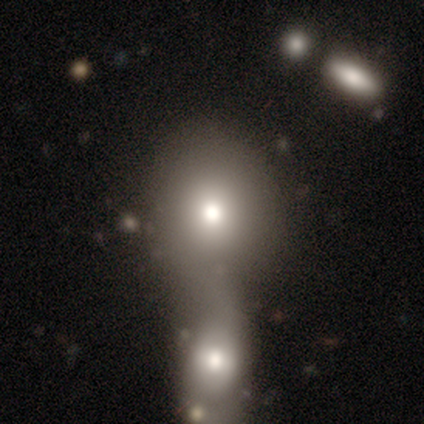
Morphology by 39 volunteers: type=smooth (64%); roundness=round (52%); merging=merger (83%).